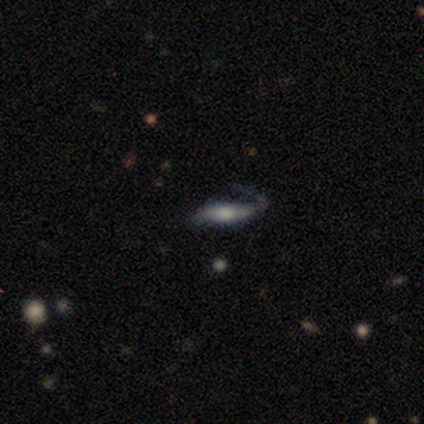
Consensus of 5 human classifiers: Smooth or featured?
  - smooth: 80% *
  - featured or disk: 20%
  - star or artifact: 0%
How rounded?
  - cigar-shaped: 100% *
  - round: 0%
  - in between: 0%
Merging?
  - major disturbance: 60% *
  - none: 40%
  - minor disturbance: 0%
  - merger: 0%